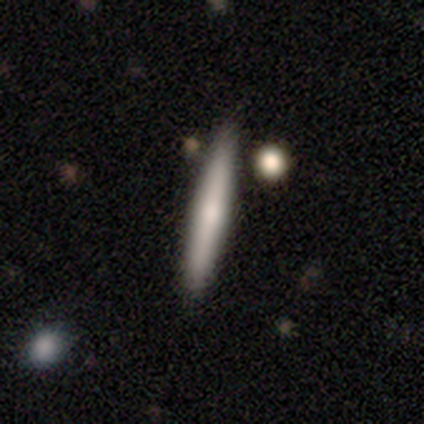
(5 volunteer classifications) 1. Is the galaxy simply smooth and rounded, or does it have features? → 60% featured or disk, 40% smooth, 0% star or artifact.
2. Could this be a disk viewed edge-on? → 100% yes, 0% no.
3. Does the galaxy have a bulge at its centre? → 67% rounded, 33% none, 0% boxy.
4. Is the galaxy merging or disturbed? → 100% none, 0% minor disturbance, 0% major disturbance, 0% merger.